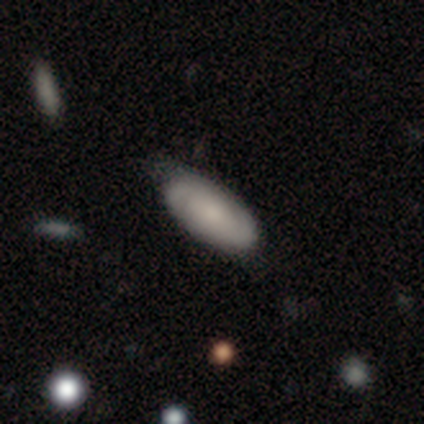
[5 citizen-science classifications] Smooth or featured? featured or disk (60%)
Edge-on disk? no (100%)
Bar? no (67%)
Spiral arms? yes (67%)
Spiral winding? tight (50%, tied with medium)
Spiral arm count? 2 (100%)
Bulge size? moderate (67%)
Merging? none (40%, tied with minor disturbance)